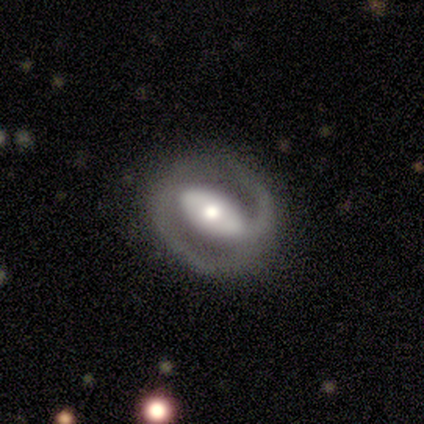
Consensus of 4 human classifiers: Morphology: type=featured or disk (50%); edge-on=no (100%); bar=strong (50%, tied with weak); spiral arms=yes (100%); winding=tight (50%, tied with medium); arm count=2 (100%); bulge=moderate (50%, tied with small); merging=none (67%).